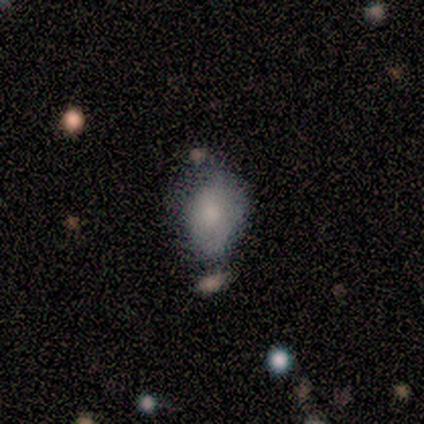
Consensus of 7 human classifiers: smooth-or-featured: smooth: 57% | featured or disk: 29% | star or artifact: 14%
  how-rounded: in between: 75% | round: 25% | cigar-shaped: 0%
  merging: none: 50% (tied) | minor disturbance: 50% (tied) | major disturbance: 0% | merger: 0%